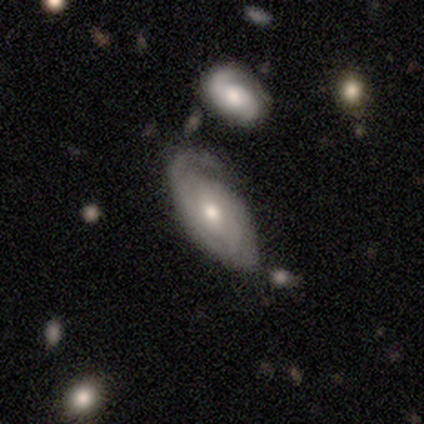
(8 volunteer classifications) A featured or disk galaxy (88%) with no bar (86%), 1 (40%) tight (60%) spiral arms (71%) and a moderate central bulge (57%). Merging: none (38%, tied with major disturbance).